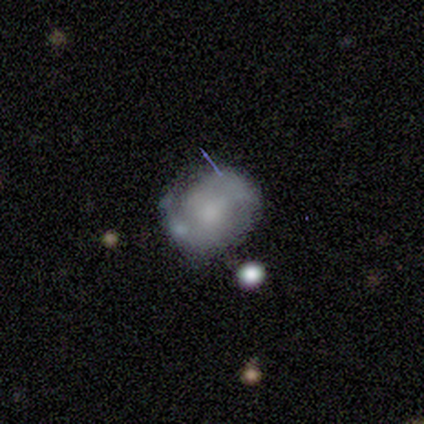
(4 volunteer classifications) Volunteers were most divided on "smooth or featured": star or artifact: 50%, smooth: 25%, featured or disk: 25%.